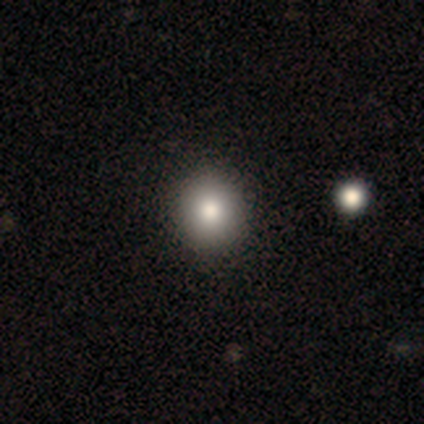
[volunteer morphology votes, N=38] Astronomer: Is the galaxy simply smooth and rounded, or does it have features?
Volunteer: smooth — 74%.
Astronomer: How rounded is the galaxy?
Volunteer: round — 96%.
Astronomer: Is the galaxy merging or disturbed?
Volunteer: none — 60%.